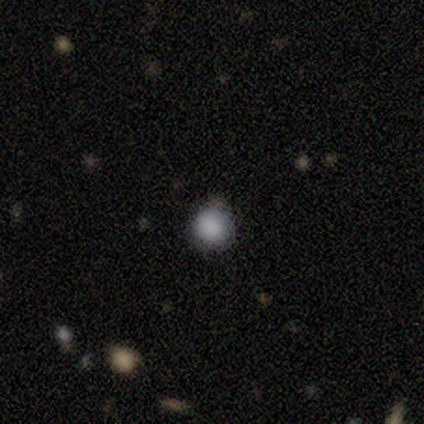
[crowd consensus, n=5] A smooth galaxy with no disk features (80%) that is round (100%). Merging: none (80%).